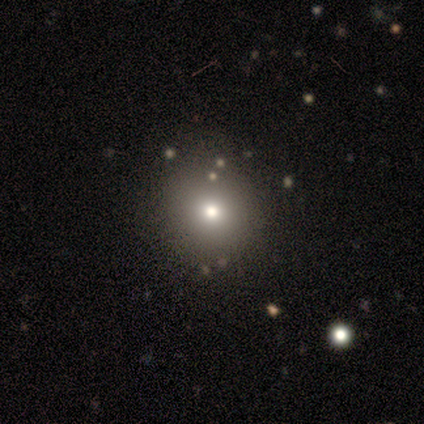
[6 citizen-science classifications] Volunteers were most divided on "smooth or featured": smooth: 50%, featured or disk: 33%, star or artifact: 17%. More confident: how rounded — round (100%); merging — none (80%).